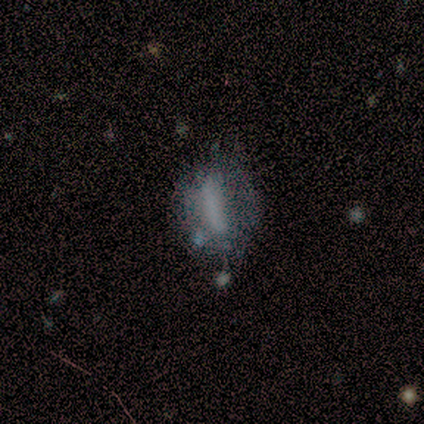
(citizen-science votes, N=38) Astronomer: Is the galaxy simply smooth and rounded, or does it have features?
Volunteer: smooth — 50% (runner-up: featured or disk, 37%).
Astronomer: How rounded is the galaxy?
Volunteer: cigar-shaped — 47% (runner-up: in between, 37%).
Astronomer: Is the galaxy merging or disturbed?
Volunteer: none — 27% (runner-up: minor disturbance, 18%).